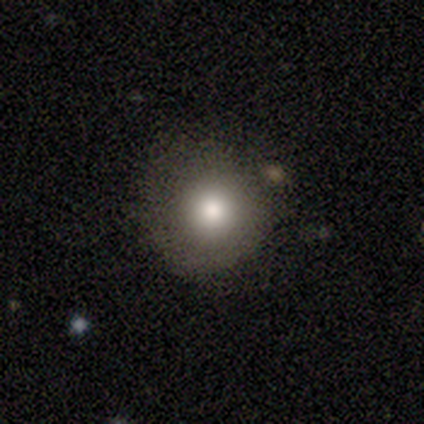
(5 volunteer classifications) A smooth galaxy with no disk features (60%) that is round (100%).

Vote fractions:
- Smooth or featured? smooth: 60% / featured or disk: 20% / star or artifact: 20%
- How rounded? round: 100% / in between: 0% / cigar-shaped: 0%
- Merging? none: 50% / minor disturbance: 25% / major disturbance: 25% / merger: 0%